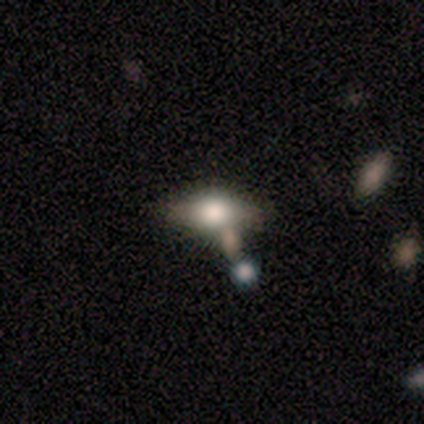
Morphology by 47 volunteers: smooth 53%, featured or disk 40%, star or artifact 6%. Down the decision tree: how rounded — in between (72%); merging — none (55%).